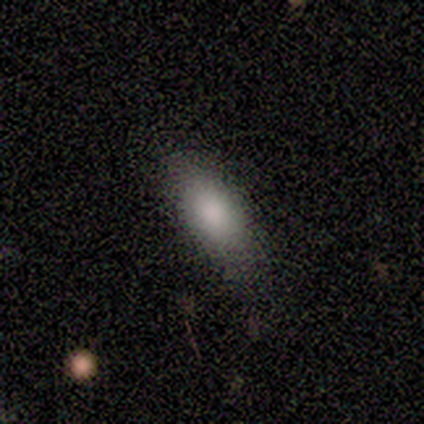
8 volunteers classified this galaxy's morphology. Smooth or featured? smooth (88%)
How rounded? in between (86%)
Merging? none (88%)